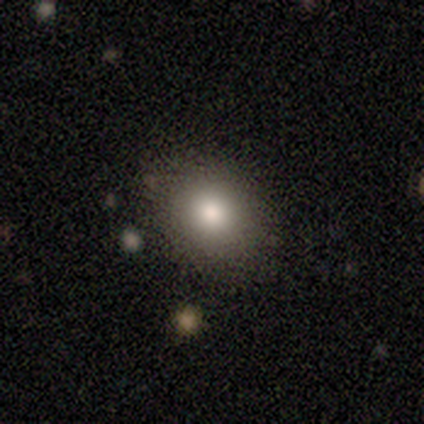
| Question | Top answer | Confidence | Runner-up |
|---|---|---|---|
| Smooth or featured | smooth | 100% | — |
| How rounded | round | 60% | in between (40%) |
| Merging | none | 100% | — |